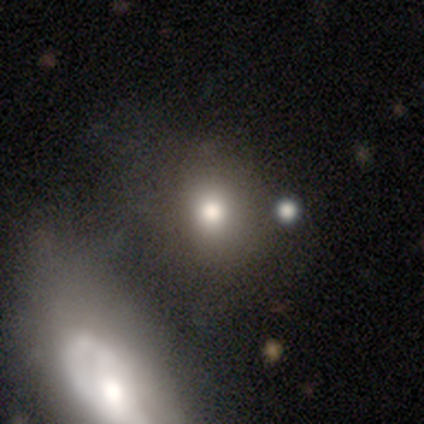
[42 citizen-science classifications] Smooth or featured: smooth — 83% (star or artifact — 10%)
How rounded: round — 66% (in between — 34%)
Merging: none — 58% (minor disturbance — 21%)